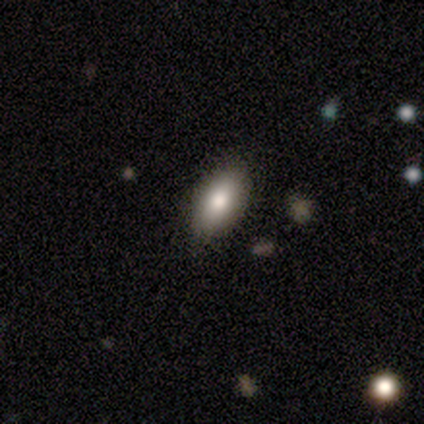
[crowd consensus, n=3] Smooth or featured? 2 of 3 (67%) said smooth. How rounded? 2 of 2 (100%) said in between. Merging? 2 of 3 (67%) said none.